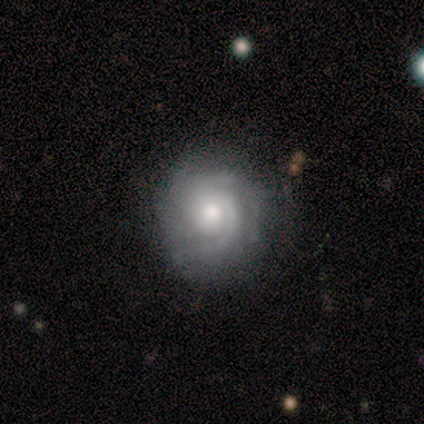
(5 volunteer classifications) Smooth or featured? 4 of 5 (80%) said featured or disk. Edge-on disk? 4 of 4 (100%) said no. Bar? 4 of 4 (100%) said no. Spiral arms? 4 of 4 (100%) said yes. Spiral winding? 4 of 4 (100%) said tight. Spiral arm count? 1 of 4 (25%, tied with 2, 3 and can't tell) said 1. Bulge size? 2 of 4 (50%, tied with small) said moderate. Merging? 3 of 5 (60%) said minor disturbance.